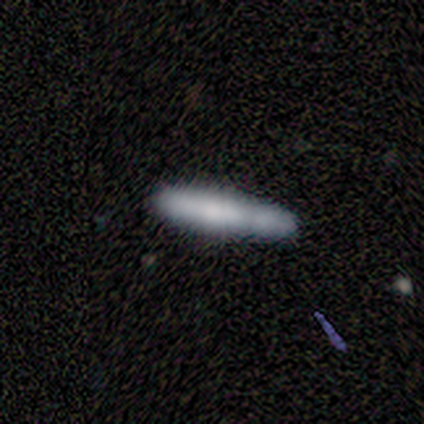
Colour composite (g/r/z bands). It shows a smooth galaxy with no disk features (80%) that is cigar-shaped (75%). Merging: none (100%).